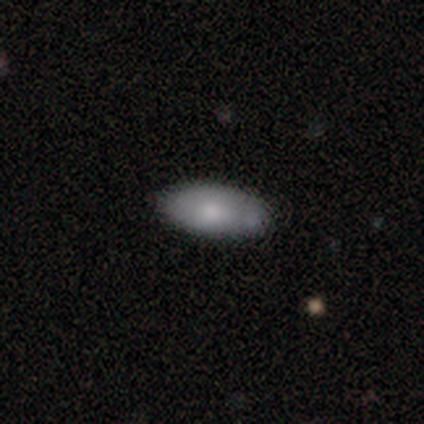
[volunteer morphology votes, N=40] This is clearly a smooth galaxy (80%). How rounded: clearly in between (94%). Merging: likely none (74%).